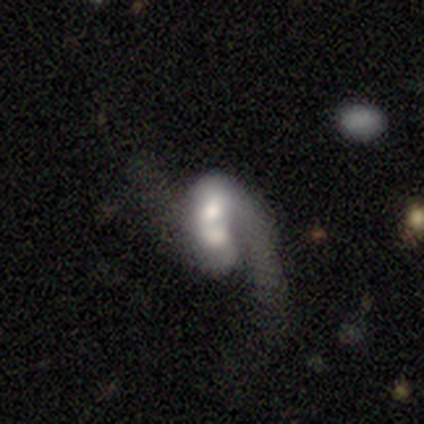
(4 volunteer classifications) smooth_or_featured: smooth (p=0.50) [tied with: featured or disk p=0.50]
how_rounded: round (p=0.50) [tied with: in between p=0.50]
merging: merger (p=0.75) [alt: major disturbance p=0.25]